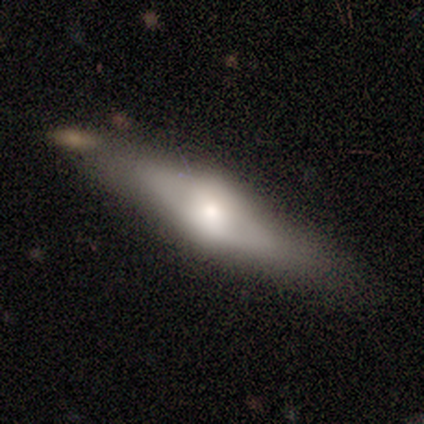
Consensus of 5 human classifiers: This appears to be a featured or disk galaxy (80%) viewed edge-on (75%) with a rounded central bulge (100%). Merging: none (80%).